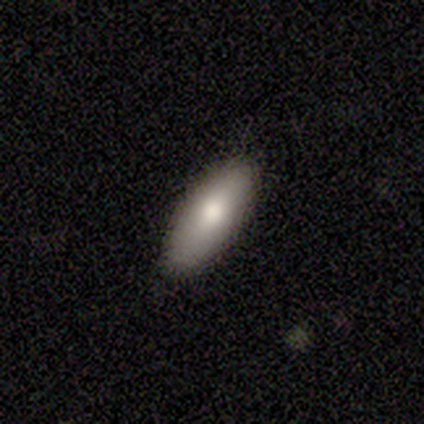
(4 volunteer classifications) Volunteers were most divided on "smooth or featured": smooth: 50%, featured or disk: 25%, star or artifact: 25%. More confident: how rounded — in between (100%); merging — none (67%).